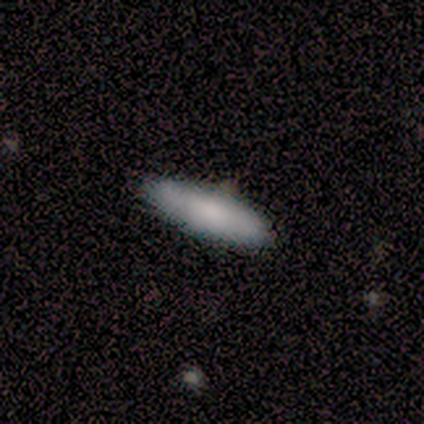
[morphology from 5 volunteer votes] A smooth galaxy with no disk features (40%, tied with featured or disk) that is in between round and cigar-shaped (50%, tied with cigar-shaped). Merging: none (75%).